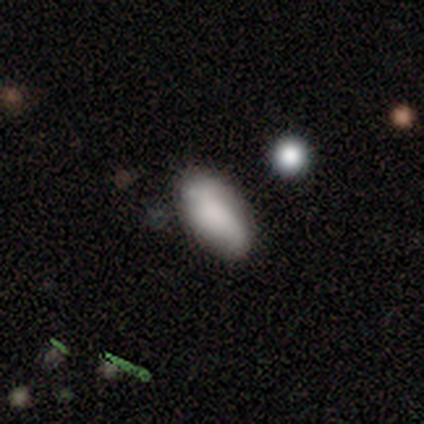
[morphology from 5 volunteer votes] smooth-or-featured: smooth: 100% | featured or disk: 0% | star or artifact: 0%
  how-rounded: in between: 100% | round: 0% | cigar-shaped: 0%
  merging: none: 80% | minor disturbance: 20% | major disturbance: 0% | merger: 0%